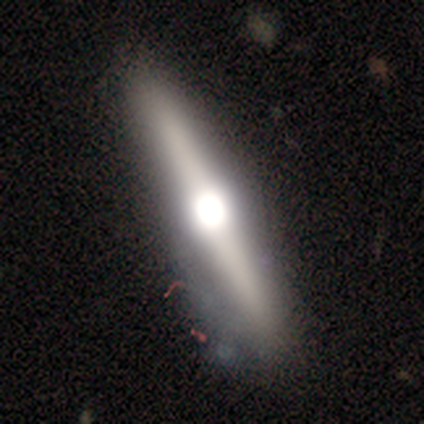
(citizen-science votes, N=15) Morphology: type=featured or disk (53%); edge-on=yes (100%); edge-on bulge=rounded (100%); merging=none (43%).